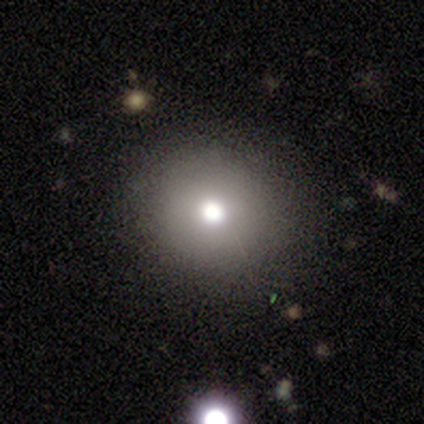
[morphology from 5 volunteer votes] This is likely a smooth galaxy (60%). How rounded: clearly round (100%). Merging: clearly none (100%).